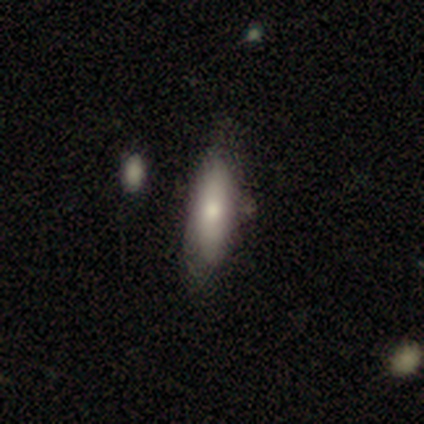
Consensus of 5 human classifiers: A smooth galaxy with no disk features (60%) that is in between round and cigar-shaped (100%).

Vote fractions:
- Smooth or featured? smooth: 60% / featured or disk: 40% / star or artifact: 0%
- How rounded? in between: 100% / round: 0% / cigar-shaped: 0%
- Merging? none: 80% / minor disturbance: 20% / major disturbance: 0% / merger: 0%